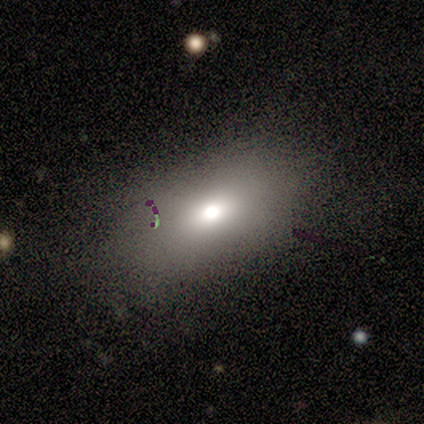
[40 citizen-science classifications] A smooth galaxy with no disk features (68%) that is in between round and cigar-shaped (85%).

Vote fractions:
- Smooth or featured? smooth: 68% / star or artifact: 20% / featured or disk: 12%
- How rounded? in between: 85% / round: 15% / cigar-shaped: 0%
- Merging? none: 62% / minor disturbance: 22% / major disturbance: 16% / merger: 0%